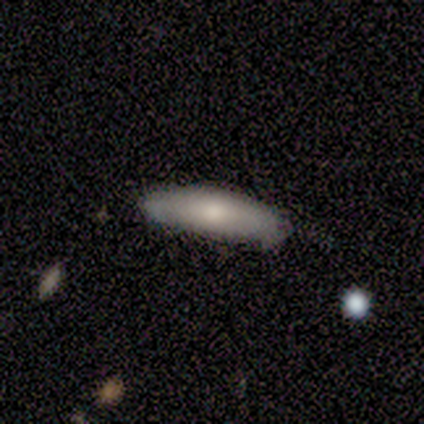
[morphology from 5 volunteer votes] Overall: smooth (100%). How rounded: in between (80%). Merging: none (60%; minor disturbance 40%).